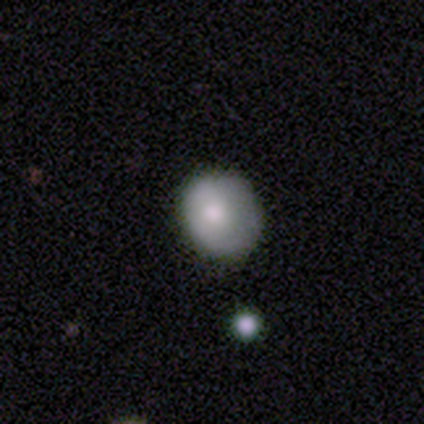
Smooth or featured? 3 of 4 (75%) said smooth. How rounded? 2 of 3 (67%) said round. Merging? 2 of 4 (50%, tied with minor disturbance) said none.